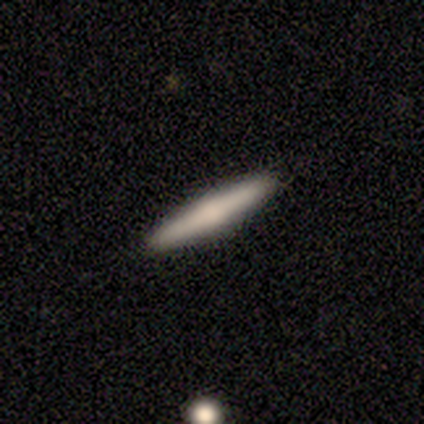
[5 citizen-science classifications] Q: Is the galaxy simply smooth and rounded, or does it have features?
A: featured or disk — 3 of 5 (60%).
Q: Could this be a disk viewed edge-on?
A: yes — 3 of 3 (100%).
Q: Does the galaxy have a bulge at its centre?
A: rounded — 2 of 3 (67%).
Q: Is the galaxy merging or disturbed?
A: none — 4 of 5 (80%).